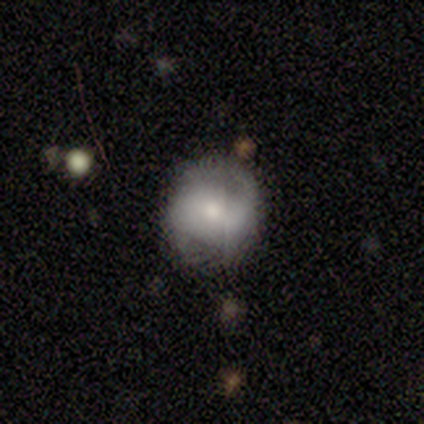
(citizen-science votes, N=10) This appears to be a smooth galaxy with no disk features (50%) that is round (80%). Merging: none (67%).